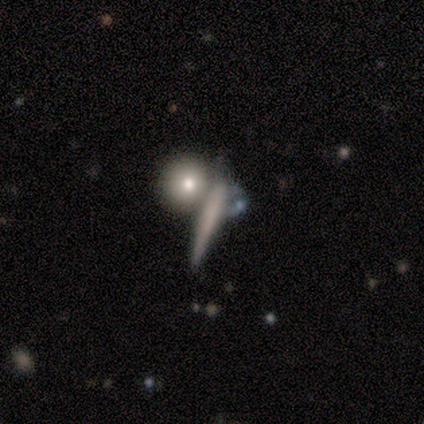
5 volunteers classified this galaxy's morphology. Smooth or featured?
  - smooth: 60% *
  - featured or disk: 40%
  - star or artifact: 0%
How rounded?
  - cigar-shaped: 100% *
  - round: 0%
  - in between: 0%
Merging?
  - none: 80% *
  - major disturbance: 20%
  - minor disturbance: 0%
  - merger: 0%